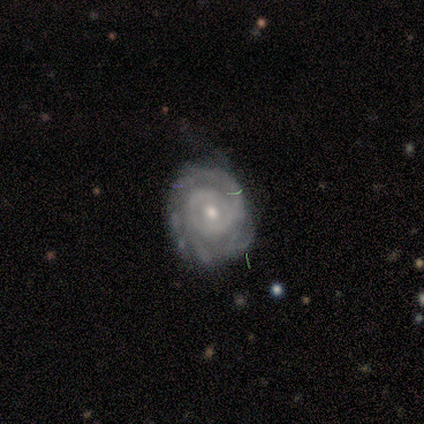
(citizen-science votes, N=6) smooth-or-featured: featured or disk: 100% | smooth: 0% | star or artifact: 0%
  disk-edge-on: no: 100% | yes: 0%
    bar: no: 100% | strong: 0% | weak: 0%
    has-spiral-arms: yes: 100% | no: 0%
      spiral-winding: tight: 67% | medium: 33% | loose: 0%
      spiral-arm-count: can't tell: 50% | 1: 33% | 2: 17% | 3: 0% | 4: 0% | more than 4: 0%
    bulge-size: small: 67% | moderate: 33% | dominant: 0% | large: 0% | none: 0%
  merging: none: 67% | minor disturbance: 17% | major disturbance: 17% | merger: 0%